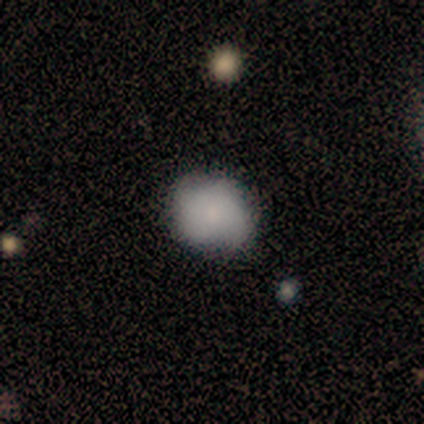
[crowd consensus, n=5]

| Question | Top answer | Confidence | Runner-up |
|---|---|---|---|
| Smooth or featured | smooth | 100% | — |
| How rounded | in between | 60% | round (40%) |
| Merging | none | 100% | — |